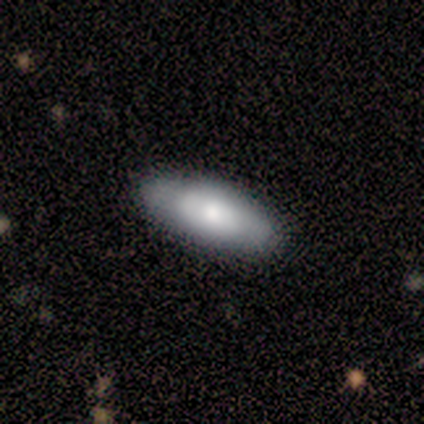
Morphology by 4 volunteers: type=smooth (75%); roundness=in between (67%); merging=none (100%).